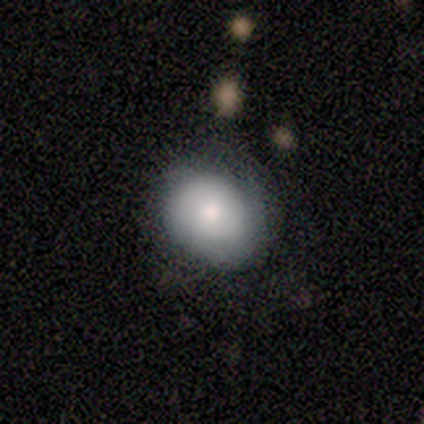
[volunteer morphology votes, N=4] smooth 50%, featured or disk 25%, star or artifact 25%. Down the decision tree: how rounded — round (50%, tied with in between); merging — none (100%).